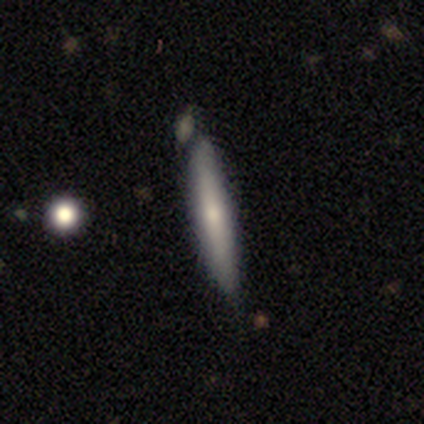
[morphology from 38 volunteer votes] Q: Smooth or featured?
A: smooth (71%); runner-up: featured or disk (29%)
Q: How rounded?
A: cigar-shaped (100%)
Q: Merging?
A: none (71%); runner-up: minor disturbance (18%)